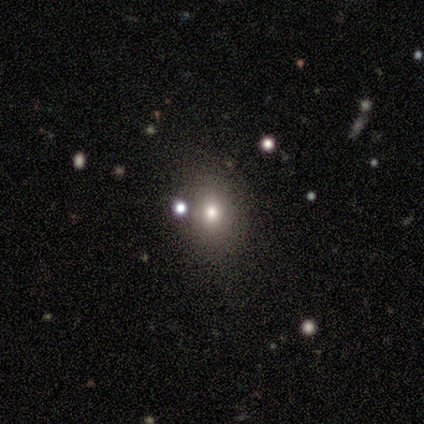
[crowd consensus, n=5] A smooth galaxy with no disk features (80%) that is round (50%, tied with in between). Merging: none (100%).